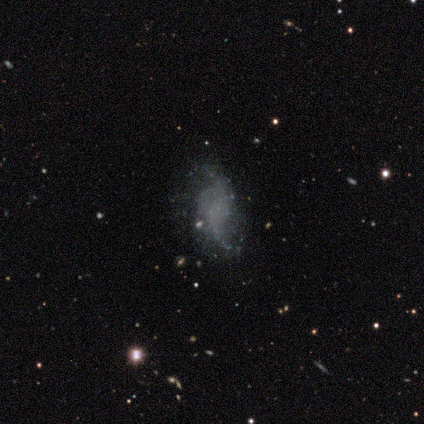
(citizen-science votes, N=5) smooth_or_featured: featured or disk (p=0.80) [alt: star or artifact p=0.20]
disk_edge_on: no (p=1.00)
bar: no (p=0.75) [alt: weak p=0.25]
has_spiral_arms: yes (p=0.75) [alt: no p=0.25]
spiral_winding: loose (p=1.00)
spiral_arm_count: 2 (p=1.00)
bulge_size: none (p=0.75) [alt: small p=0.25]
merging: none (p=0.25) [tied with: minor disturbance p=0.25, major disturbance p=0.25, merger p=0.25]